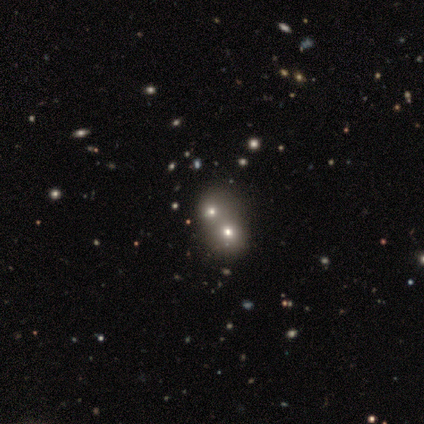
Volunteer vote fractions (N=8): Overall: star or artifact (50%; smooth 38%).